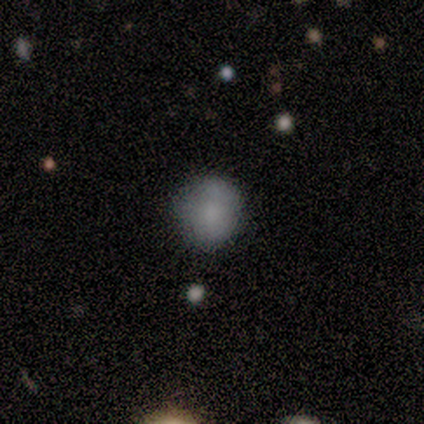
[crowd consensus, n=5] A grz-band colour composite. It shows a smooth galaxy with no disk features (80%) that is round (75%). Merging: none (50%, tied with minor disturbance).